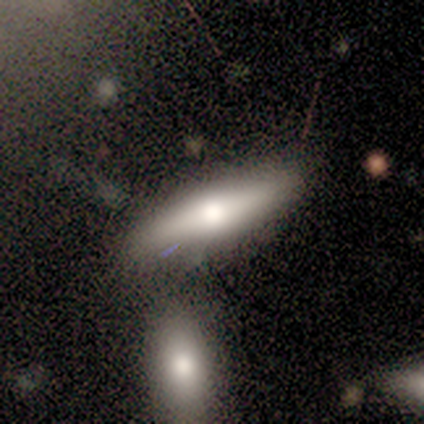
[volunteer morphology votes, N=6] A smooth galaxy with no disk features (50%, tied with featured or disk) that is in between round and cigar-shaped (67%).

Vote fractions:
- Smooth or featured? smooth: 50% (tied) / featured or disk: 50% (tied) / star or artifact: 0%
- How rounded? in between: 67% / cigar-shaped: 33% / round: 0%
- Merging? none: 67% / merger: 33% / minor disturbance: 0% / major disturbance: 0%